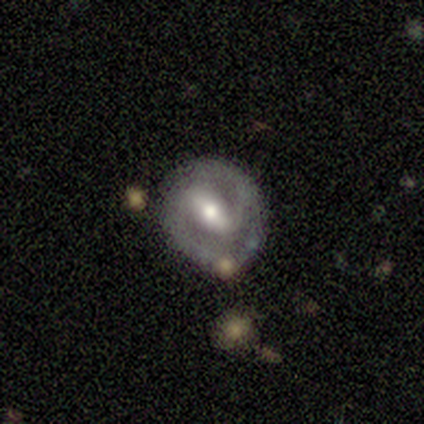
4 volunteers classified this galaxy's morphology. featured or disk 100%, smooth 0%, star or artifact 0%. Down the decision tree: edge-on disk — no (100%); bar — weak (50%); spiral arms — no (75%); bulge size — moderate (75%); merging — none (75%).